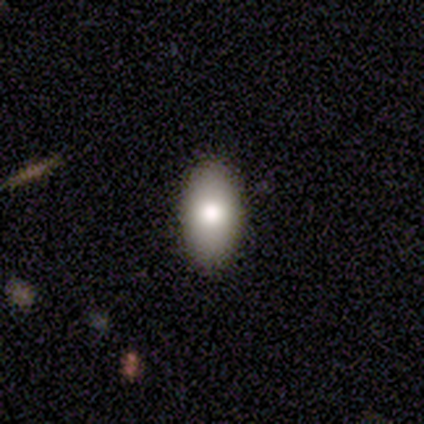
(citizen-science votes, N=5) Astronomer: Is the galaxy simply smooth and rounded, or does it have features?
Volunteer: smooth — 80%.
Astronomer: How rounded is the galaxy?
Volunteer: in between — 100%.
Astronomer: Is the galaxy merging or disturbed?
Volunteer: none — 100%.